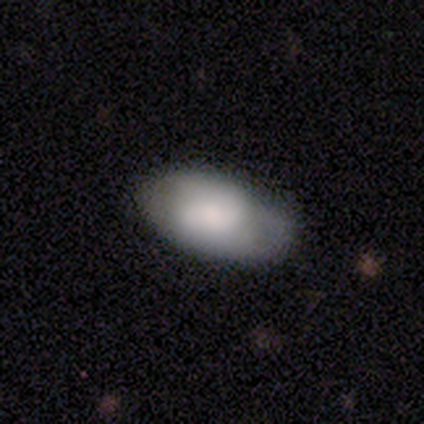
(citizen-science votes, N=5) Overall: smooth (80%). How rounded: in between (100%). Merging: none (60%; minor disturbance 40%).